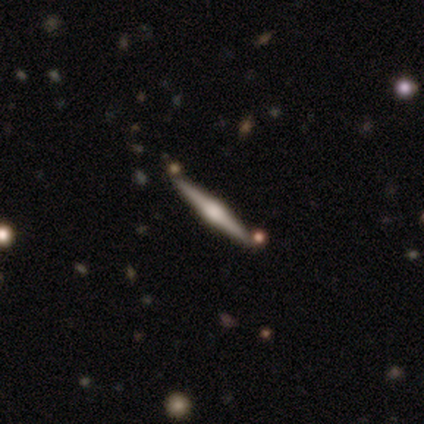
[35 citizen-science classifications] featured or disk 89%, smooth 9%, star or artifact 3%. Down the decision tree: edge-on disk — yes (97%); edge-on bulge — rounded (80%); merging — none (82%).